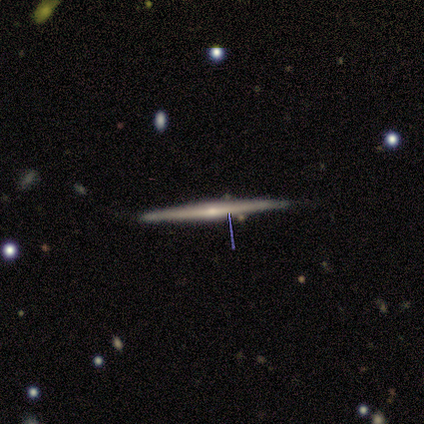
Smooth or featured? featured or disk (80%)
Edge-on disk? yes (100%)
Edge-on bulge? none (50%, tied with rounded)
Merging? none (80%)